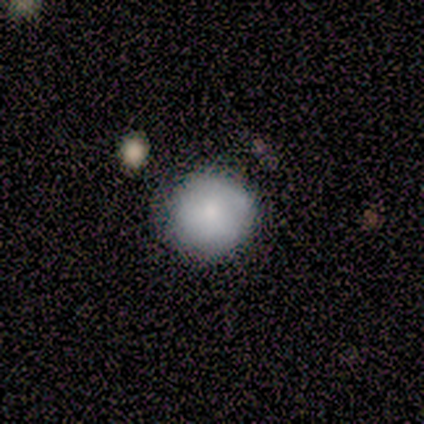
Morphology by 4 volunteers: A smooth galaxy with no disk features (100%) that is round (100%).

Vote fractions:
- Smooth or featured? smooth: 100% / featured or disk: 0% / star or artifact: 0%
- How rounded? round: 100% / in between: 0% / cigar-shaped: 0%
- Merging? none: 100% / minor disturbance: 0% / major disturbance: 0% / merger: 0%